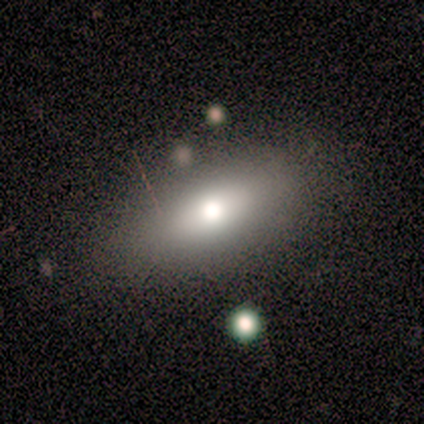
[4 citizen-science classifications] This appears to be a smooth galaxy with no disk features (75%) that is in between round and cigar-shaped (100%). Merging: none (100%).